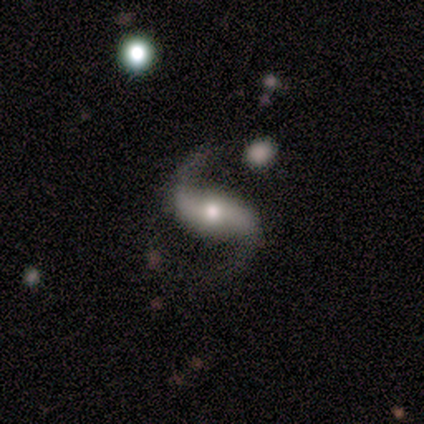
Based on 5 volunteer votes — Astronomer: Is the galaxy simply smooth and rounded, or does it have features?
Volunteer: featured or disk — 100%.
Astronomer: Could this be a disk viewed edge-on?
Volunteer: no — 100%.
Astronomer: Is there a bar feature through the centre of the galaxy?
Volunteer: strong — 100%.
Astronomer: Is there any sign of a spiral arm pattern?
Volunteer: yes — 100%.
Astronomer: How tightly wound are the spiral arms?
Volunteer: loose — 80%.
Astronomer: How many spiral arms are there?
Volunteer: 2 — 100%.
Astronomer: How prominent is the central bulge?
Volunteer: moderate — 60% (runner-up: small, 40%).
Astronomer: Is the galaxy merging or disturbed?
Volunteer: none — 60%.